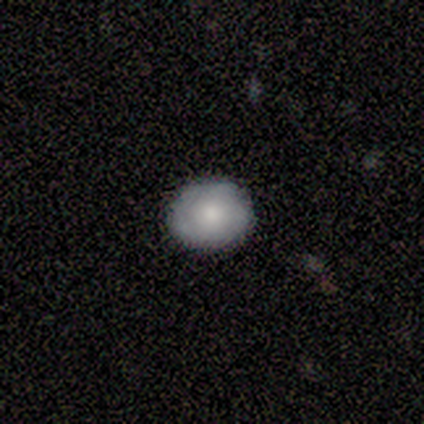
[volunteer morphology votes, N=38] smooth_or_featured: smooth (p=0.71) [alt: featured or disk p=0.26]
how_rounded: round (p=0.70) [alt: in between p=0.30]
merging: none (p=0.89) [alt: minor disturbance p=0.11]